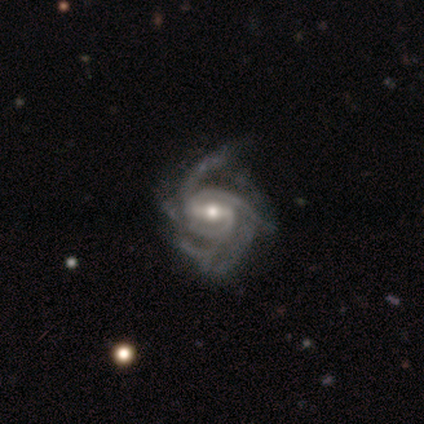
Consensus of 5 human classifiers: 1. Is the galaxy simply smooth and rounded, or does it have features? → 100% featured or disk, 0% smooth, 0% star or artifact.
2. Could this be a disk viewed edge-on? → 100% no, 0% yes.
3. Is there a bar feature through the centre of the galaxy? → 60% strong, 20% weak, 20% no.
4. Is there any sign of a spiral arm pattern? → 100% yes, 0% no.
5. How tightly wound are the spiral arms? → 80% medium, 20% tight, 0% loose.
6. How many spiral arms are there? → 60% more than 4, 20% 3, 20% can't tell, 0% 1, 0% 2, 0% 4.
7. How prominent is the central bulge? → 40% moderate (tied), 40% small (tied), 20% large, 0% dominant, 0% none.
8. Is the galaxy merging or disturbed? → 80% none, 20% minor disturbance, 0% major disturbance, 0% merger.